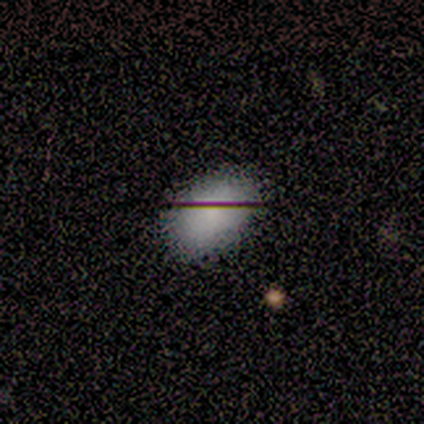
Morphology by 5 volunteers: Q: Smooth or featured?
A: smooth (100%)
Q: How rounded?
A: in between (60%); runner-up: round (40%)
Q: Merging?
A: none (80%); runner-up: minor disturbance (20%)